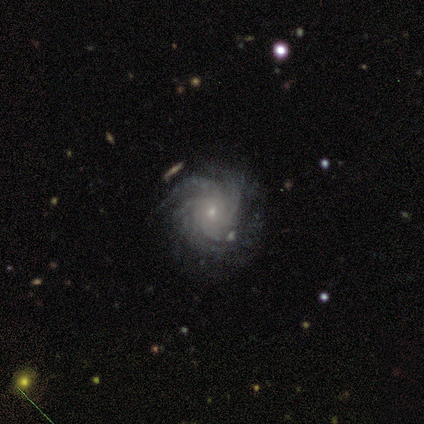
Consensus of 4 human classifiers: Smooth or featured: featured or disk — 100%
Edge-on disk: no — 100%
Bar: weak — 50% (tied with no — 50%)
Spiral arms: yes — 100%
Spiral winding: tight — 50% (tied with medium — 50%)
Spiral arm count: 2 — 25% (tied with 3 — 25%; 4 — 25%; more than 4 — 25%)
Bulge size: small — 75% (moderate — 25%)
Merging: none — 50% (tied with minor disturbance — 50%)